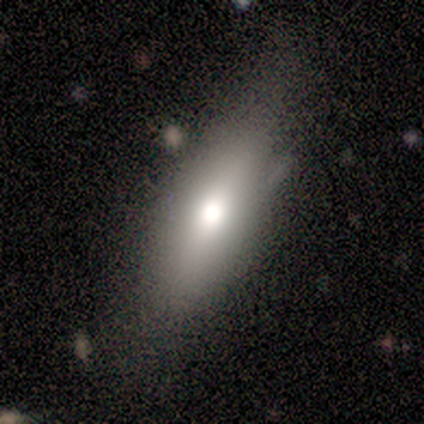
Q: Smooth or featured?
A: smooth (40%); tied with: featured or disk (40%)
Q: How rounded?
A: in between (50%); tied with: cigar-shaped (50%)
Q: Merging?
A: none (50%); tied with: minor disturbance (50%)